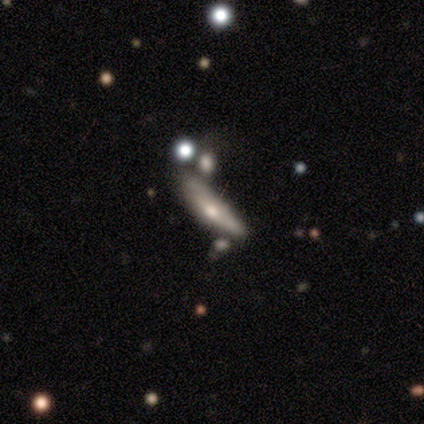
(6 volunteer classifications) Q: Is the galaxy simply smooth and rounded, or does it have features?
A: smooth — 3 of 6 (50%).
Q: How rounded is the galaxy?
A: cigar-shaped — 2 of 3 (67%).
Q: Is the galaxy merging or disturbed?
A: none — 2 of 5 (40%).